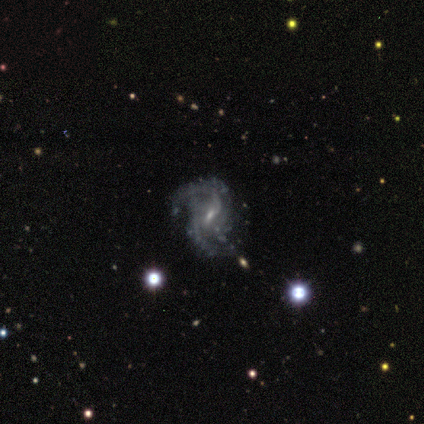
Overall: featured or disk (92%). Edge-on disk: no (100%). Bar: no (42%; weak 33%). Spiral arms: yes (100%). Spiral arm count: 2 (83%). Spiral winding: medium (50%; loose 33%). Bulge size: small (92%). Merging: none (75%).